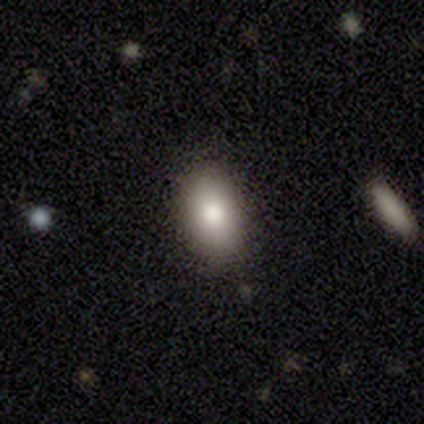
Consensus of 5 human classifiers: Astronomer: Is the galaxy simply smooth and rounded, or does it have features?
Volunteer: smooth — 80%.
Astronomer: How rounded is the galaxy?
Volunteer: in between — 50%.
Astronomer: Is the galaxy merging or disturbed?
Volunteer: none — 100%.